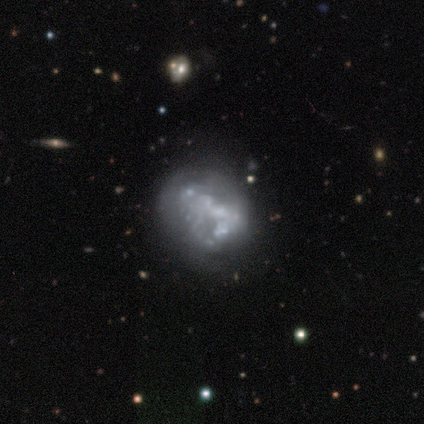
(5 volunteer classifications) Smooth or featured? featured or disk (80%)
Edge-on disk? no (100%)
Bar? no (100%)
Spiral arms? no (100%)
Bulge size? none (100%)
Merging? none (60%)